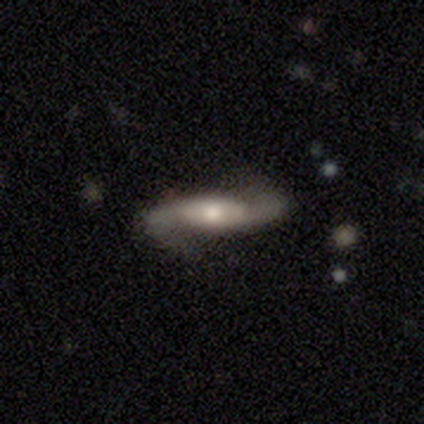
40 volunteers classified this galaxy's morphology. A featured or disk galaxy (90%) with a weak bar (43%), 2 (97%) loose (52%) spiral arms (97%) and a moderate central bulge (90%).

Vote fractions:
- Smooth or featured? featured or disk: 90% / smooth: 10% / star or artifact: 0%
- Edge-on disk? no: 83% / yes: 17%
- Bar? weak: 43% / no: 37% / strong: 20%
- Spiral arms? yes: 97% / no: 3%
- Spiral winding? loose: 52% / medium: 38% / tight: 10%
- Spiral arm count? 2: 97% / can't tell: 3% / 1: 0% / 3: 0% / 4: 0% / more than 4: 0%
- Bulge size? moderate: 90% / small: 10% / dominant: 0% / large: 0% / none: 0%
- Merging? none: 78% / minor disturbance: 12% / major disturbance: 10% / merger: 0%